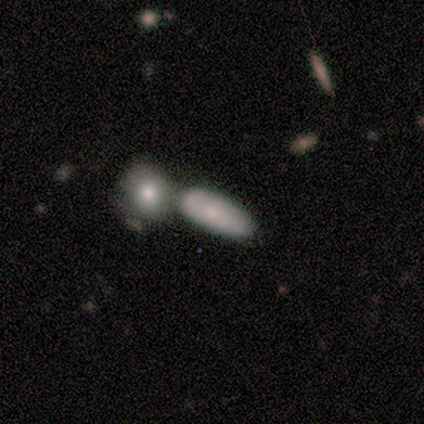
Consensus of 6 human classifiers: Smooth or featured? smooth (50%, tied with featured or disk)
How rounded? round (33%, tied with in between and cigar-shaped)
Merging? none (50%)